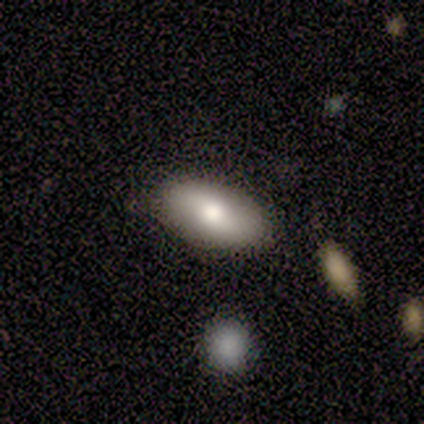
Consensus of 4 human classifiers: This is possibly a smooth galaxy (50%, tied with featured or disk). How rounded: clearly in between (100%). Merging: clearly none (100%).